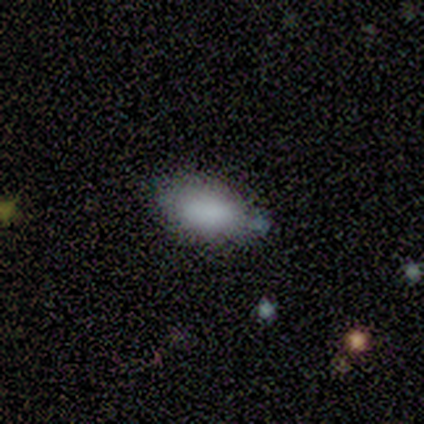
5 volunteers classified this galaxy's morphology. Smooth or featured: smooth — 100%
How rounded: in between — 100%
Merging: minor disturbance — 60% (none — 20%)